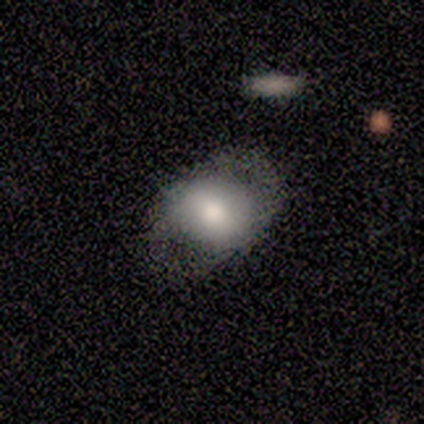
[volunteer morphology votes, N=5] Overall: smooth (80%). How rounded: in between (75%). Merging: minor disturbance (40%, tied with major disturbance).